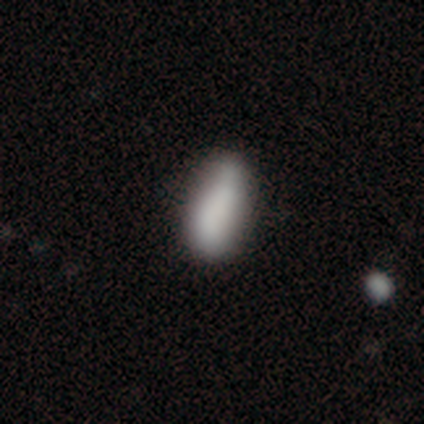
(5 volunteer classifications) Smooth or featured? 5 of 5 (100%) said smooth. How rounded? 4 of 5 (80%) said in between. Merging? 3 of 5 (60%) said minor disturbance.